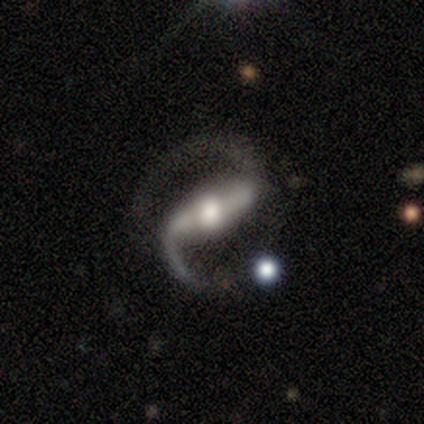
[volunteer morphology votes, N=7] A featured or disk galaxy (86%) with a strong bar (50%), 2 (100%) medium (75%) spiral arms (100%) and a small central bulge (50%). Merging: none (67%).